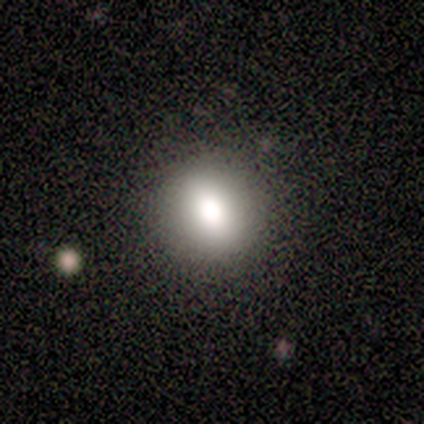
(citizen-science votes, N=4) Smooth or featured?
  - smooth: 100% *
  - featured or disk: 0%
  - star or artifact: 0%
How rounded?
  - round: 100% *
  - in between: 0%
  - cigar-shaped: 0%
Merging?
  - none: 100% *
  - minor disturbance: 0%
  - major disturbance: 0%
  - merger: 0%